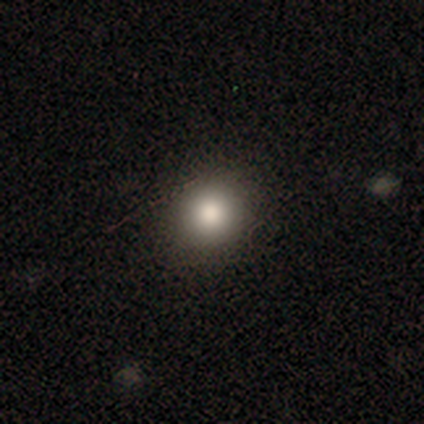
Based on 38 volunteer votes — Smooth or featured? smooth (82%)
How rounded? round (97%)
Merging? none (94%)